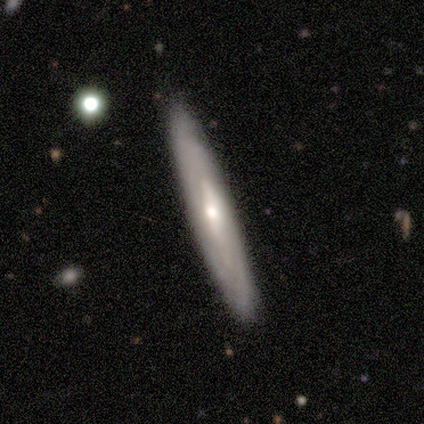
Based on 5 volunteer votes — smooth-or-featured: featured or disk: 80% | smooth: 20% | star or artifact: 0%
  disk-edge-on: yes: 50% (tied) | no: 50% (tied)
    edge-on-bulge: none: 50% (tied) | rounded: 50% (tied) | boxy: 0%
  merging: none: 100% | minor disturbance: 0% | major disturbance: 0% | merger: 0%